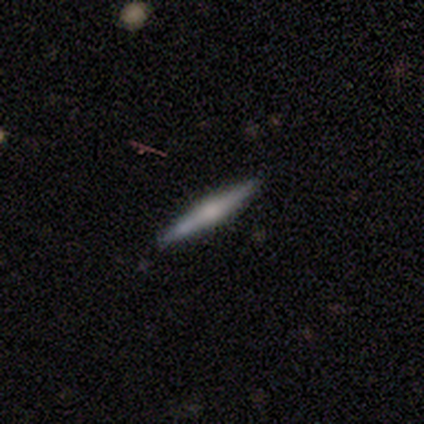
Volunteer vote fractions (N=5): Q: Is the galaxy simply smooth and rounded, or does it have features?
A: featured or disk — 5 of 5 (100%).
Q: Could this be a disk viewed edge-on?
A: yes — 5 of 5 (100%).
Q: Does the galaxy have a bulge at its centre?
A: rounded — 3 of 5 (60%).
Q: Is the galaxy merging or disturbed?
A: none — 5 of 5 (100%).